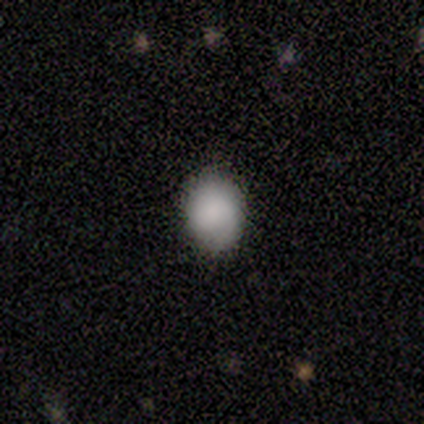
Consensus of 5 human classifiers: Smooth or featured: smooth — 80% (featured or disk — 20%)
How rounded: round — 50% (tied with in between — 50%)
Merging: none — 80% (major disturbance — 20%)